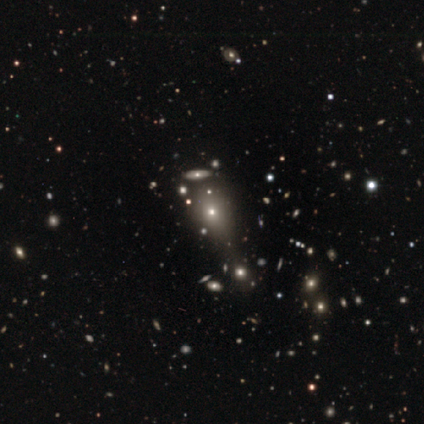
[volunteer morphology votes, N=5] A smooth galaxy with no disk features (60%) that is round (67%).

Vote fractions:
- Smooth or featured? smooth: 60% / featured or disk: 20% / star or artifact: 20%
- How rounded? round: 67% / in between: 33% / cigar-shaped: 0%
- Merging? none: 50% (tied) / merger: 50% (tied) / minor disturbance: 0% / major disturbance: 0%